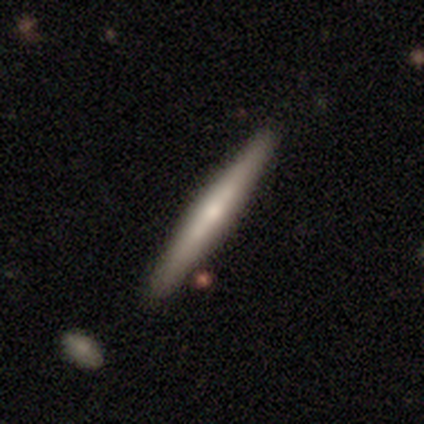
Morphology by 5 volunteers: smooth-or-featured: smooth: 60% | featured or disk: 40% | star or artifact: 0%
  how-rounded: cigar-shaped: 100% | round: 0% | in between: 0%
  merging: none: 60% | minor disturbance: 40% | major disturbance: 0% | merger: 0%